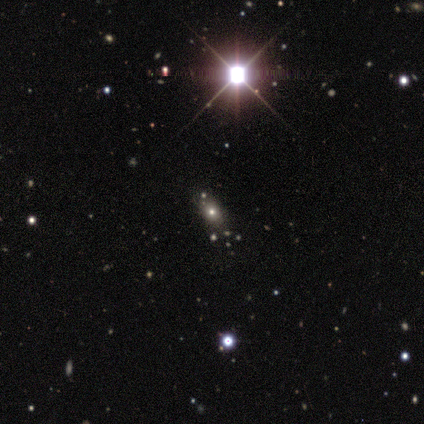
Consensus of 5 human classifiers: Smooth or featured: smooth — 60% (star or artifact — 40%)
How rounded: in between — 100%
Merging: none — 100%